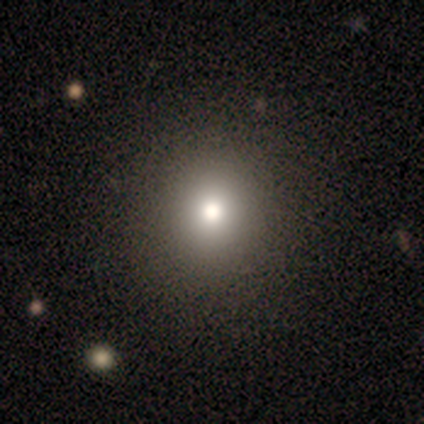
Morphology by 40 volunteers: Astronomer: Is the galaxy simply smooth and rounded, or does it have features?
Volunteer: smooth — 85%.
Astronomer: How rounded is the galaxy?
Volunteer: round — 94%.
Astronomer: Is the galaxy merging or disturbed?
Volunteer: none — 70%.